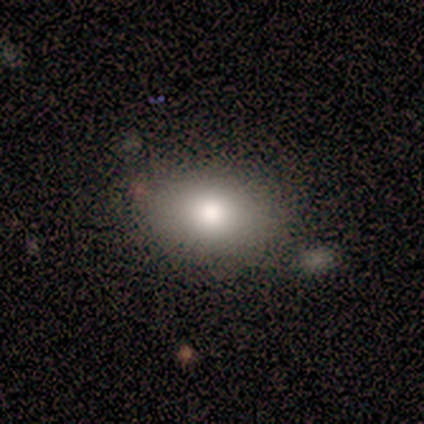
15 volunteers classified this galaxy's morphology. Smooth or featured?
  - smooth: 80% *
  - featured or disk: 20%
  - star or artifact: 0%
How rounded?
  - in between: 92% *
  - round: 8%
  - cigar-shaped: 0%
Merging?
  - none: 80% *
  - merger: 13%
  - minor disturbance: 7%
  - major disturbance: 0%